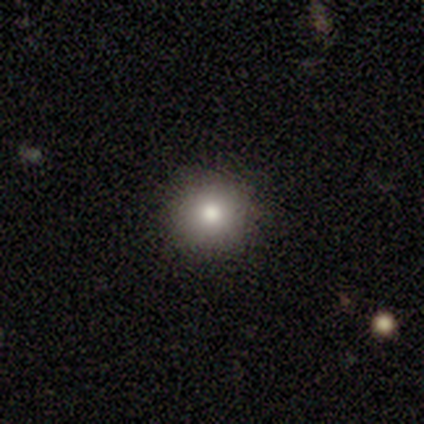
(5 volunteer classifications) smooth_or_featured: smooth (p=1.00)
how_rounded: round (p=1.00)
merging: none (p=1.00)